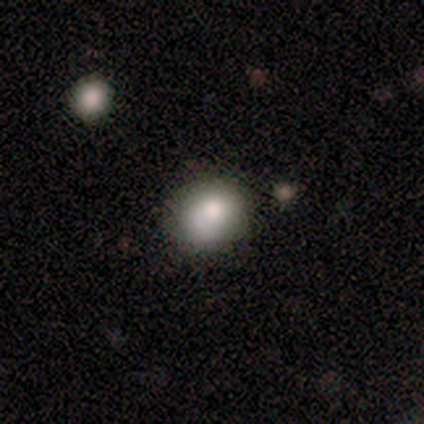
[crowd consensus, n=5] Smooth or featured? smooth (80%)
How rounded? in between (75%)
Merging? none (50%, tied with minor disturbance)